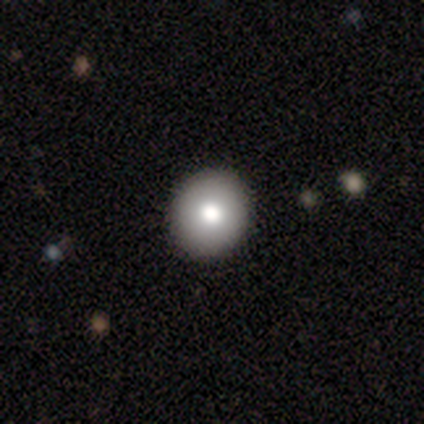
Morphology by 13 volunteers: Overall: smooth (85%). How rounded: round (91%). Merging: none (85%).